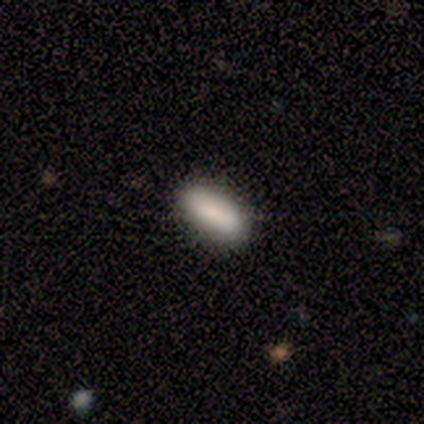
This appears to be a smooth galaxy with no disk features (100%) that is in between round and cigar-shaped (75%). Merging: none (83%).